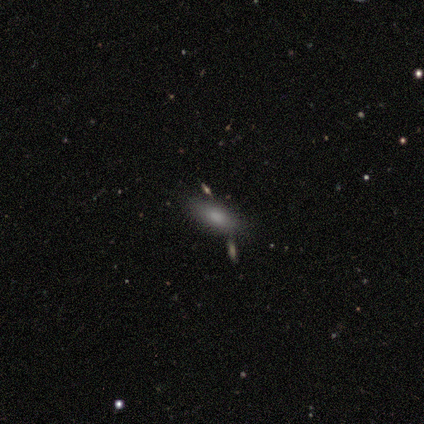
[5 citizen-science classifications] Q: Smooth or featured?
A: smooth (100%)
Q: How rounded?
A: in between (100%)
Q: Merging?
A: none (60%); runner-up: merger (40%)